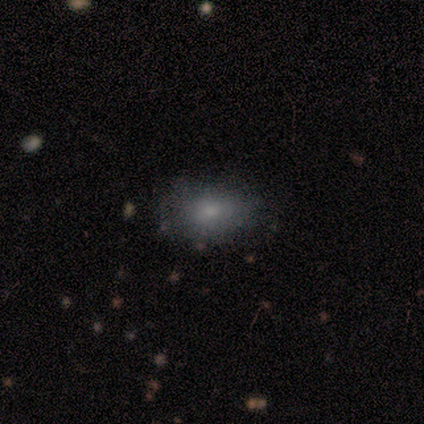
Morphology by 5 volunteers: Smooth or featured? 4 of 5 (80%) said smooth. How rounded? 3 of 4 (75%) said in between. Merging? 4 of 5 (80%) said none.